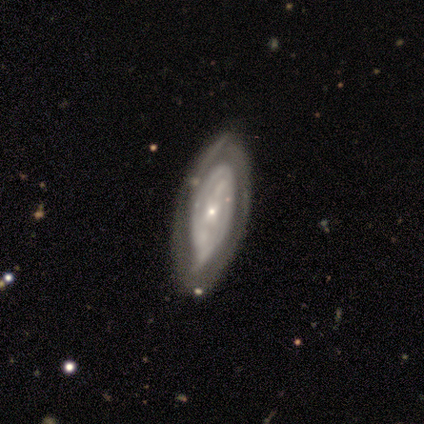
A featured or disk galaxy (86%) with no bar (83%), no spiral arms (67%) and a small central bulge (100%).

Vote fractions:
- Smooth or featured? featured or disk: 86% / smooth: 14% / star or artifact: 0%
- Edge-on disk? no: 100% / yes: 0%
- Bar? no: 83% / weak: 17% / strong: 0%
- Spiral arms? no: 67% / yes: 33%
- Bulge size? small: 100% / dominant: 0% / large: 0% / moderate: 0% / none: 0%
- Merging? none: 43% / minor disturbance: 29% / merger: 29% / major disturbance: 0%